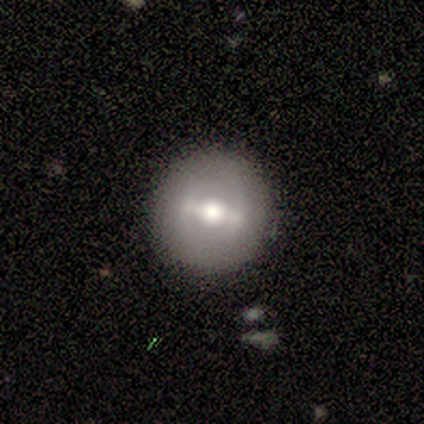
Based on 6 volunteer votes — This is possibly a smooth galaxy (50%, tied with featured or disk). How rounded: clearly round (100%). Merging: clearly none (100%).